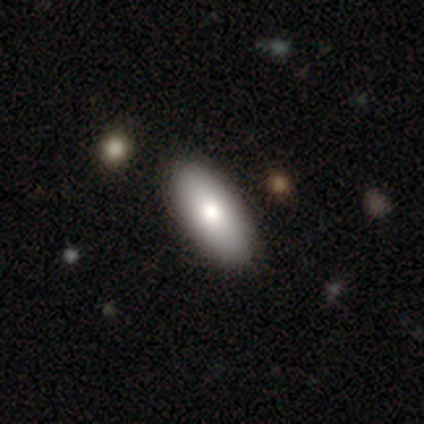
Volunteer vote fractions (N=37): A smooth galaxy with no disk features (78%) that is in between round and cigar-shaped (86%).

Vote fractions:
- Smooth or featured? smooth: 78% / featured or disk: 19% / star or artifact: 3%
- How rounded? in between: 86% / cigar-shaped: 14% / round: 0%
- Merging? none: 61% / minor disturbance: 6% / merger: 3% / major disturbance: 0%